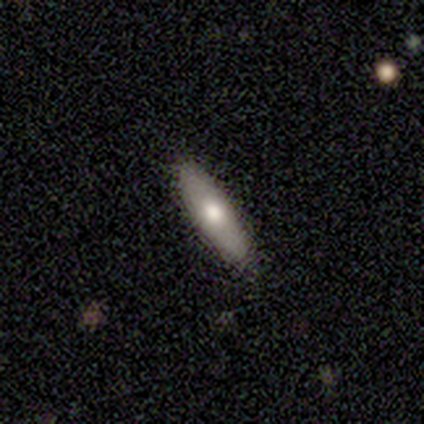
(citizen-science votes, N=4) Smooth or featured? 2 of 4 (50%, tied with featured or disk) said smooth. How rounded? 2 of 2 (100%) said cigar-shaped. Merging? 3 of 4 (75%) said none.